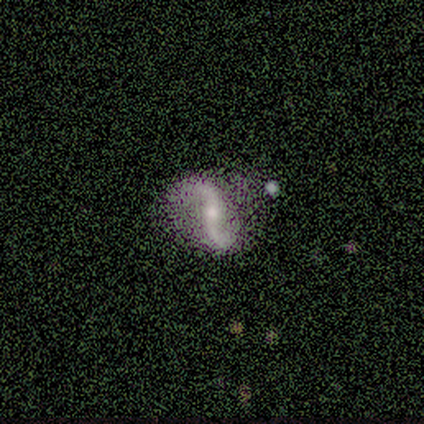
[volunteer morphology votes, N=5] smooth_or_featured: featured or disk (p=0.80) [alt: star or artifact p=0.20]
disk_edge_on: no (p=1.00)
bar: no (p=0.75) [alt: strong p=0.25]
has_spiral_arms: yes (p=1.00)
spiral_winding: loose (p=0.75) [alt: medium p=0.25]
spiral_arm_count: 2 (p=1.00)
bulge_size: small (p=0.75) [alt: moderate p=0.25]
merging: none (p=0.75) [alt: minor disturbance p=0.25]